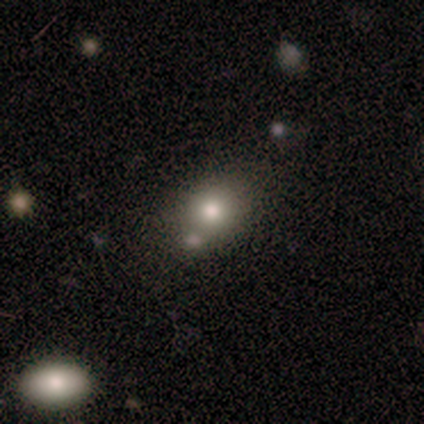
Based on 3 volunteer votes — A smooth galaxy with no disk features (67%) that is round (50%, tied with in between). Merging: none (50%, tied with minor disturbance).